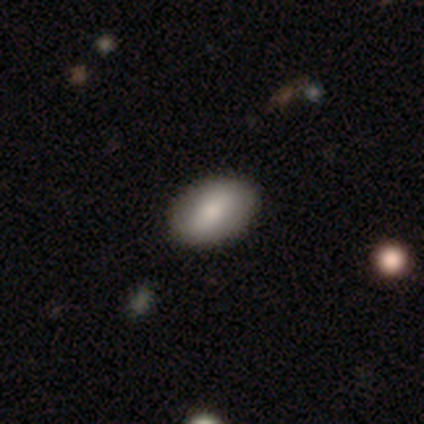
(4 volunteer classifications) This is clearly a smooth galaxy (100%). How rounded: clearly in between (100%). Merging: clearly none (100%).